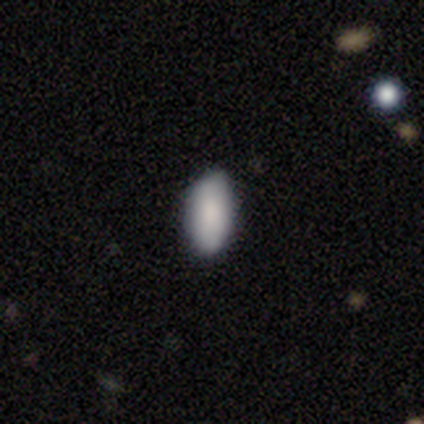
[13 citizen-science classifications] smooth_or_featured: smooth (p=0.92) [alt: featured or disk p=0.08]
how_rounded: in between (p=0.92) [alt: cigar-shaped p=0.08]
merging: none (p=0.92) [alt: minor disturbance p=0.08]